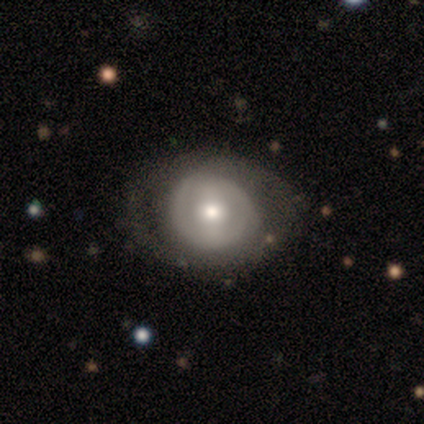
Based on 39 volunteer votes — This is likely a featured or disk galaxy (74%). It is clearly not viewed edge-on (100%). Bar: possibly no (55%). Spiral arm pattern: possibly no (52%). Central bulge: likely moderate (66%). Merging: likely none (75%).